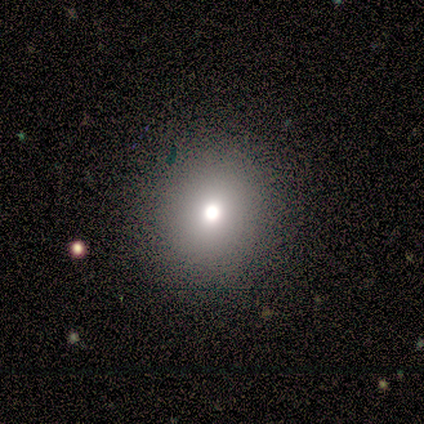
Morphology: type=smooth (60%); roundness=round (100%); merging=none (80%).